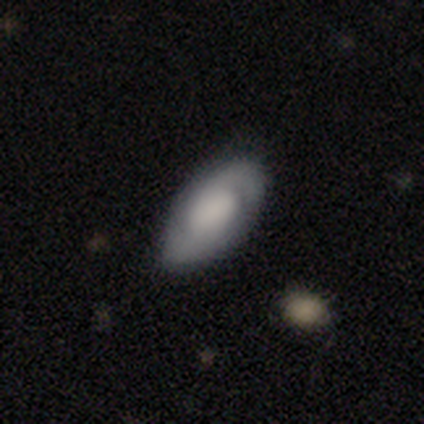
smooth-or-featured: featured or disk: 75% | smooth: 25% | star or artifact: 0%
  disk-edge-on: no: 67% | yes: 33%
    bar: no: 100% | strong: 0% | weak: 0%
    has-spiral-arms: yes: 50% (tied) | no: 50% (tied)
      spiral-winding: tight: 100% | medium: 0% | loose: 0%
      spiral-arm-count: 2: 100% | 1: 0% | 3: 0% | 4: 0% | more than 4: 0% | can't tell: 0%
    bulge-size: large: 50% (tied) | none: 50% (tied) | dominant: 0% | moderate: 0% | small: 0%
  merging: none: 100% | minor disturbance: 0% | major disturbance: 0% | merger: 0%